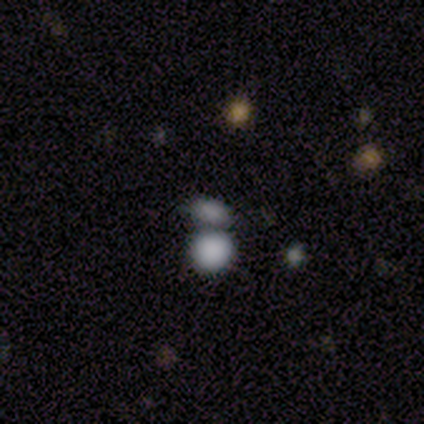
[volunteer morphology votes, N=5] Smooth or featured? 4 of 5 (80%) said smooth. How rounded? 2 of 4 (50%, tied with in between) said round. Merging? 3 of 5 (60%) said none.